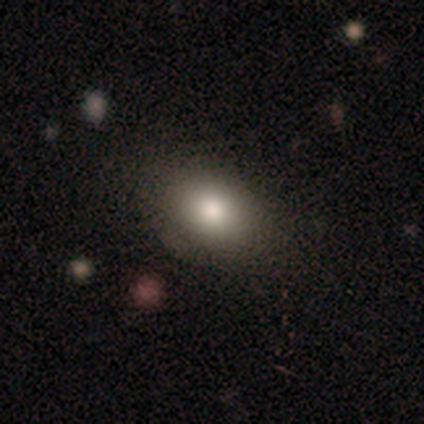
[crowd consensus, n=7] Q: Smooth or featured?
A: smooth (86%); runner-up: star or artifact (14%)
Q: How rounded?
A: in between (67%); runner-up: round (33%)
Q: Merging?
A: none (83%); runner-up: minor disturbance (17%)